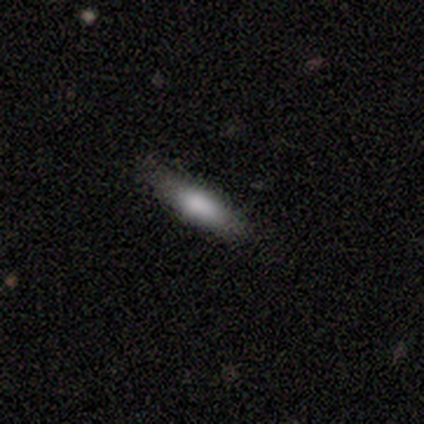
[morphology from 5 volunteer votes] A smooth galaxy with no disk features (100%) that is cigar-shaped (100%).

Vote fractions:
- Smooth or featured? smooth: 100% / featured or disk: 0% / star or artifact: 0%
- How rounded? cigar-shaped: 100% / round: 0% / in between: 0%
- Merging? none: 80% / minor disturbance: 20% / major disturbance: 0% / merger: 0%